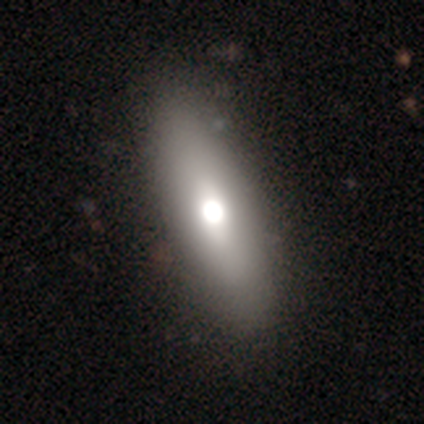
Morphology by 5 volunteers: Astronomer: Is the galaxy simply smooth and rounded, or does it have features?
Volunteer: featured or disk — 60%.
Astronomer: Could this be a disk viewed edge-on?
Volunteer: no — 100%.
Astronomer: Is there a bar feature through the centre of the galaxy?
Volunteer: no — 100%.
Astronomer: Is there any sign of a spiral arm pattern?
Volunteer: no — 100%.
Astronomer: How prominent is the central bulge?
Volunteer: large — 67%.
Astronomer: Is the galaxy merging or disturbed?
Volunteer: none — 100%.